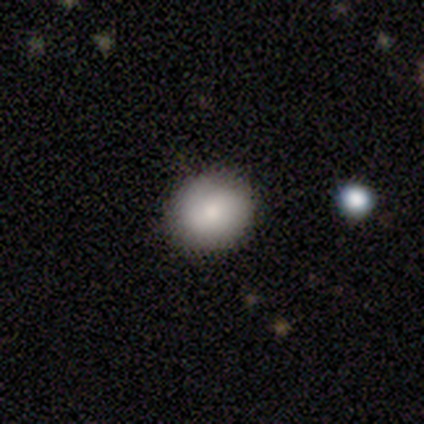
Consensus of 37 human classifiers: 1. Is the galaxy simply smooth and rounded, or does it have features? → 81% smooth, 11% featured or disk, 8% star or artifact.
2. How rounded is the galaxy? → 73% round, 27% in between, 0% cigar-shaped.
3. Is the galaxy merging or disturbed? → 85% none, 12% minor disturbance, 3% major disturbance, 0% merger.